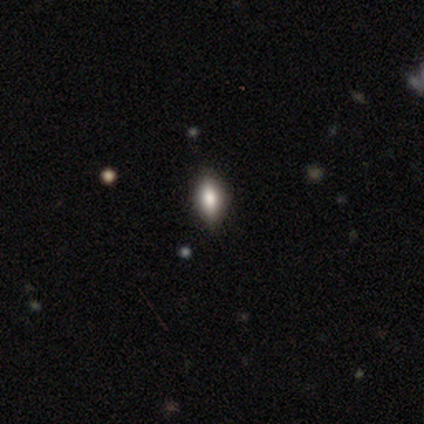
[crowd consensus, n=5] This is clearly a smooth galaxy (80%). How rounded: clearly in between (100%). Merging: likely none (60%).